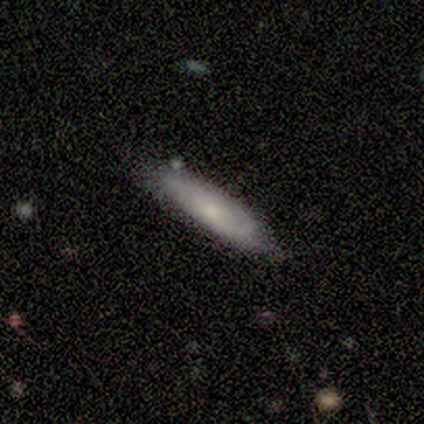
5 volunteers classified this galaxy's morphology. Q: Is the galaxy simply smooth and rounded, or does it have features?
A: smooth — 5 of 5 (100%).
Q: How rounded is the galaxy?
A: cigar-shaped — 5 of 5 (100%).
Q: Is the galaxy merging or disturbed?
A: none — 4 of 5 (80%).